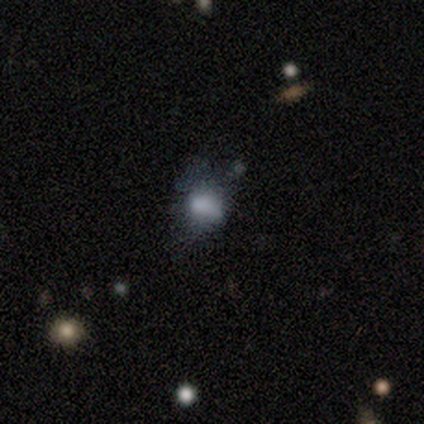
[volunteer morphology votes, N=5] This is likely a smooth galaxy (60%). How rounded: likely in between (67%). Merging: clearly minor disturbance (100%).